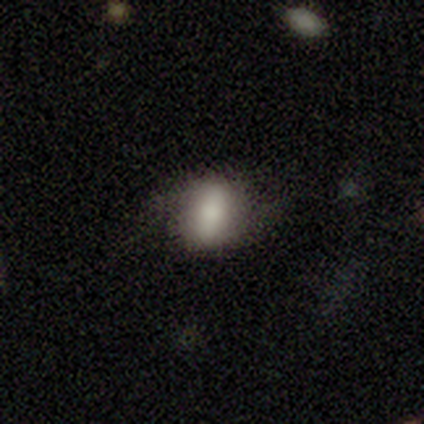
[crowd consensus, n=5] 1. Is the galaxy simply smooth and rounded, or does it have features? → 80% featured or disk, 20% smooth, 0% star or artifact.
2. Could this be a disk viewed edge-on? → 100% no, 0% yes.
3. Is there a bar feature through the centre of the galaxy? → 100% weak, 0% strong, 0% no.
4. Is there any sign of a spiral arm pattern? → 50% yes (tied), 50% no (tied).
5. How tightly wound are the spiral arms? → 100% loose, 0% tight, 0% medium.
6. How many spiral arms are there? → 100% 2, 0% 1, 0% 3, 0% 4, 0% more than 4, 0% can't tell.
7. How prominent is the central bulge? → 50% moderate, 25% dominant, 25% small, 0% large, 0% none.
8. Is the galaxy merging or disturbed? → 80% none, 20% major disturbance, 0% minor disturbance, 0% merger.